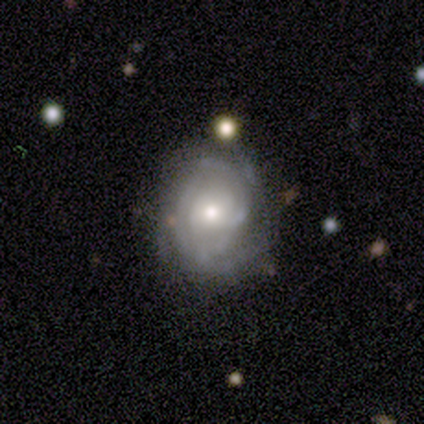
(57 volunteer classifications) This appears to be a featured or disk galaxy (70%) with no bar (92%), tight (67%) spiral arms (82%) and a moderate central bulge (75%). Merging: none (53%).